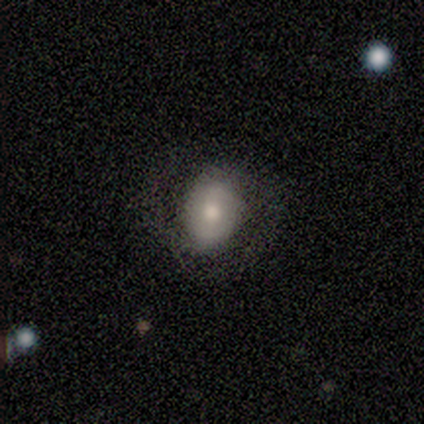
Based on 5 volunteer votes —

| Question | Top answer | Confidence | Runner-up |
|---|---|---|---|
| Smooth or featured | featured or disk | 60% | smooth (40%) |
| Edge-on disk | no | 100% | — |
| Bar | weak | 67% | no (33%) |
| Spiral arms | no | 67% | yes (33%) |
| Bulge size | large | 33% | tied: moderate (33%), small (33%) |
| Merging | none | 100% | — |